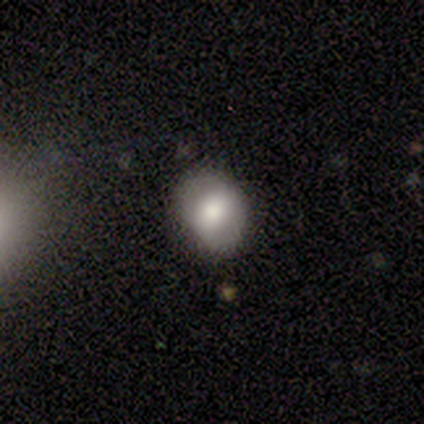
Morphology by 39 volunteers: smooth_or_featured: smooth (p=0.72) [alt: featured or disk p=0.18]
how_rounded: round (p=0.54) [alt: in between p=0.46]
merging: none (p=0.71) [alt: minor disturbance p=0.23]